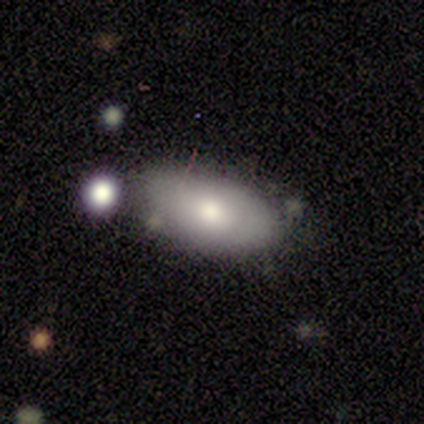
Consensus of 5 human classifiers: Smooth or featured? smooth (60%)
How rounded? in between (67%)
Merging? minor disturbance (75%)